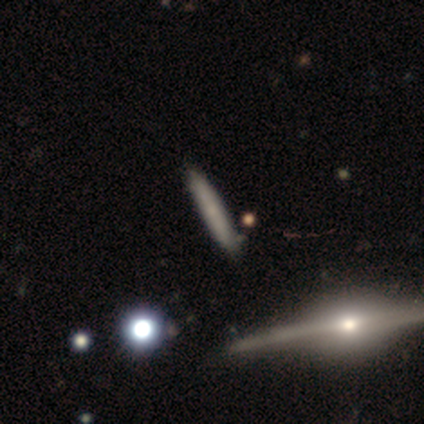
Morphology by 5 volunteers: A smooth galaxy with no disk features (60%) that is cigar-shaped (100%).

Vote fractions:
- Smooth or featured? smooth: 60% / featured or disk: 40% / star or artifact: 0%
- How rounded? cigar-shaped: 100% / round: 0% / in between: 0%
- Merging? none: 80% / minor disturbance: 20% / major disturbance: 0% / merger: 0%